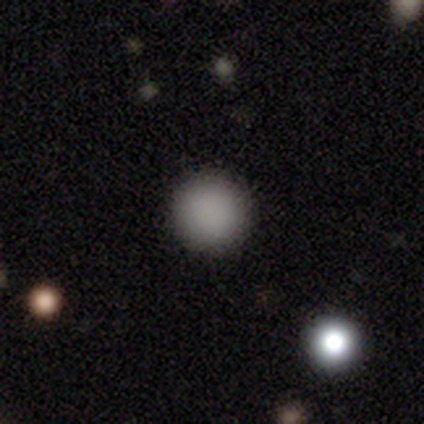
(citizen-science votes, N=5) smooth_or_featured: smooth (p=1.00)
how_rounded: round (p=1.00)
merging: none (p=1.00)